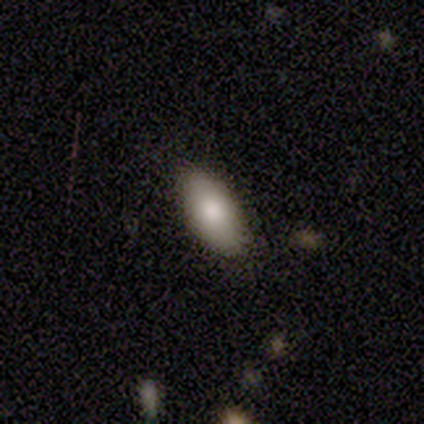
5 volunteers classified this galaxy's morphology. Smooth or featured: smooth — 80% (star or artifact — 20%)
How rounded: in between — 100%
Merging: none — 100%